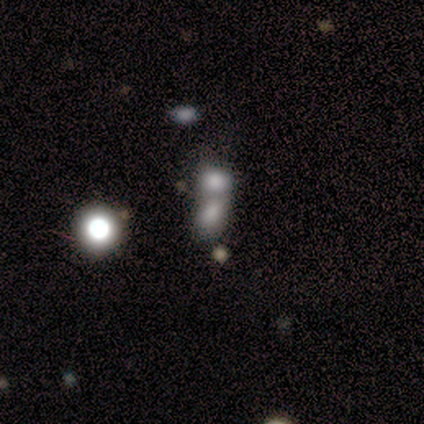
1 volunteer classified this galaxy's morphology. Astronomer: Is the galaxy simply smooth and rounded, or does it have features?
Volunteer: featured or disk — 100%.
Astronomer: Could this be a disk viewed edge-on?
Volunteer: yes — 100%.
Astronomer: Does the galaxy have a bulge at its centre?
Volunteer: rounded — 100%.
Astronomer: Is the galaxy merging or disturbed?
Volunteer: merger — 100%.